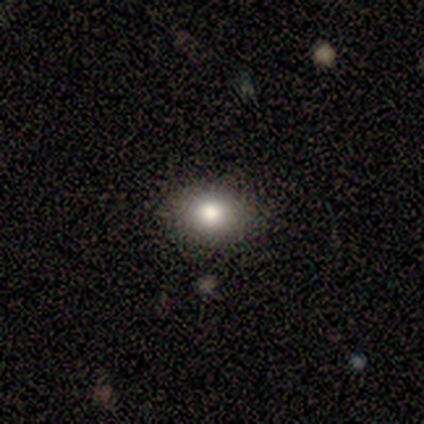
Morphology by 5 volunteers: This appears to be a smooth galaxy with no disk features (100%) that is round (60%). Merging: none (100%).